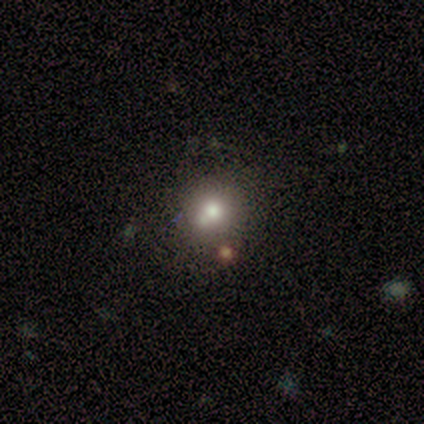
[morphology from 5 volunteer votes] Smooth or featured? star or artifact (60%)